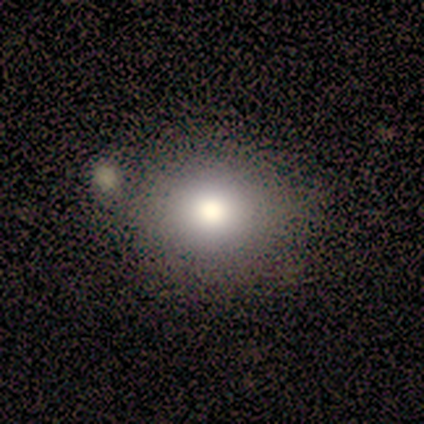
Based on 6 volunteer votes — smooth-or-featured: featured or disk: 50% | star or artifact: 33% | smooth: 17%
  disk-edge-on: no: 100% | yes: 0%
    bar: no: 100% | strong: 0% | weak: 0%
    has-spiral-arms: no: 100% | yes: 0%
    bulge-size: large: 100% | dominant: 0% | moderate: 0% | small: 0% | none: 0%
  merging: none: 100% | minor disturbance: 0% | major disturbance: 0% | merger: 0%